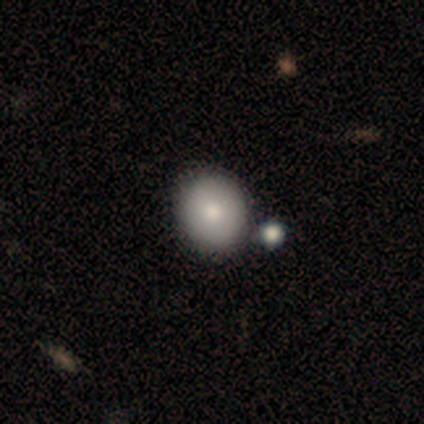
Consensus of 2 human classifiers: Morphology: type=smooth (50%, tied with featured or disk); roundness=round (100%); merging=none (100%).